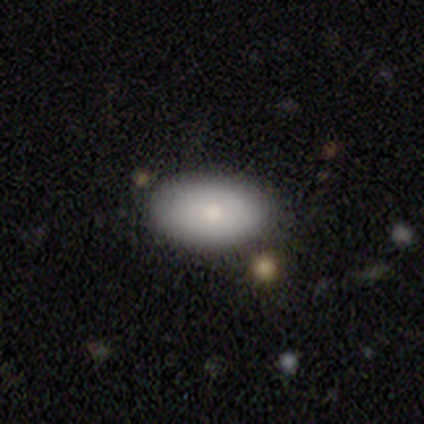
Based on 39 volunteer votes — This appears to be a smooth galaxy with no disk features (85%) that is in between round and cigar-shaped (91%). Merging: none (81%).